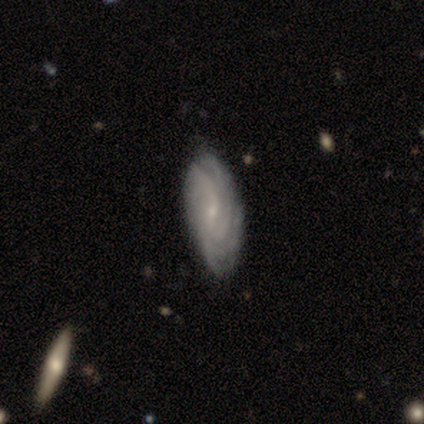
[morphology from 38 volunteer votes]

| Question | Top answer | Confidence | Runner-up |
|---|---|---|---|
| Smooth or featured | featured or disk | 84% | smooth (11%) |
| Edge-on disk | no | 100% | — |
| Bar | weak | 59% | no (34%) |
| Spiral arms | yes | 97% | no (3%) |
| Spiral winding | tight | 61% | medium (29%) |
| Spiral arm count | can't tell | 39% | 4 (23%) |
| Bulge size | small | 88% | moderate (9%) |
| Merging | none | 56% | minor disturbance (8%) |